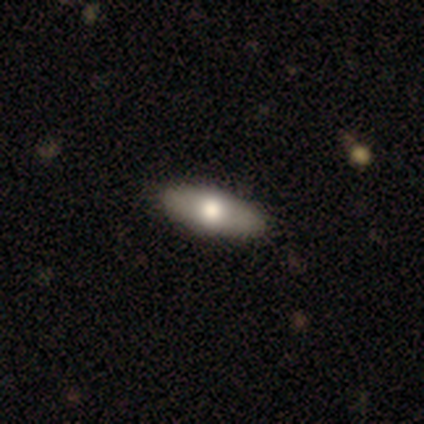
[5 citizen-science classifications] Smooth or featured? 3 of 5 (60%) said featured or disk. Edge-on disk? 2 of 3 (67%) said no. Bar? 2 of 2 (100%) said no. Spiral arms? 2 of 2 (100%) said no. Bulge size? 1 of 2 (50%, tied with large) said dominant. Merging? 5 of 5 (100%) said none.